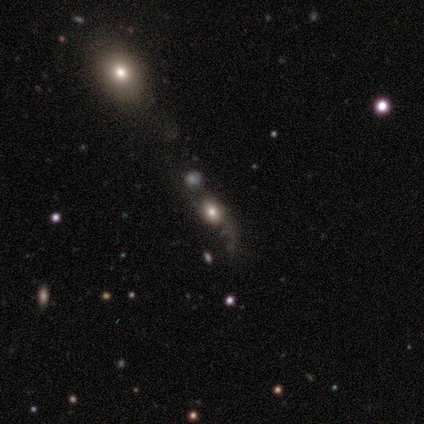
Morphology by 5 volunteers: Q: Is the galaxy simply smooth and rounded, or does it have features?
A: smooth — 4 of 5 (80%).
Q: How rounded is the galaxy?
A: round — 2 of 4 (50%, tied with in between).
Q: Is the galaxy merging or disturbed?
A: none — 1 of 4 (25%, tied with minor disturbance, major disturbance and merger).